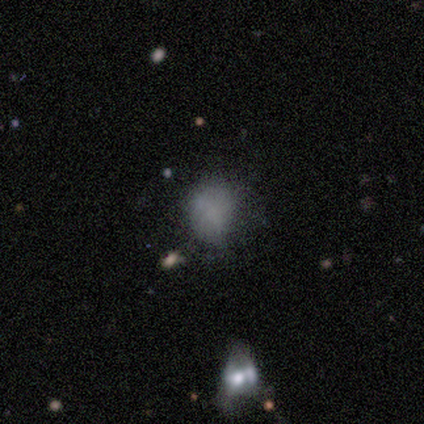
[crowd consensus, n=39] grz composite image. It shows a smooth galaxy with no disk features (64%) that is round (52%). Merging: none (52%).